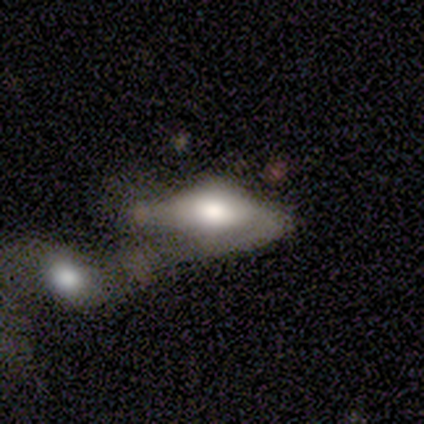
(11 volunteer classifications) Smooth or featured: featured or disk — 64% (smooth — 36%)
Edge-on disk: yes — 57% (no — 43%)
Edge-on bulge: rounded — 100%
Merging: major disturbance — 36% (tied with merger — 36%)